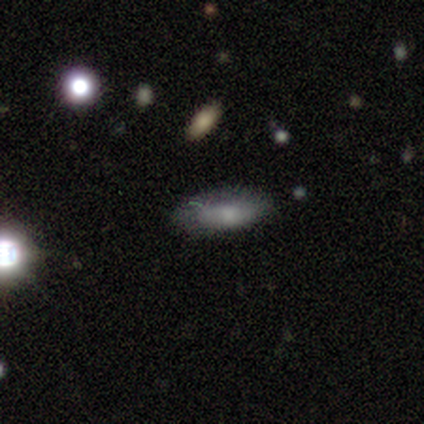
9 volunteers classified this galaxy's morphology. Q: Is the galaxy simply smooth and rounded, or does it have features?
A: smooth — 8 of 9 (89%).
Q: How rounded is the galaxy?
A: in between — 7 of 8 (88%).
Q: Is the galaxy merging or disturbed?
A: none — 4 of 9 (44%).